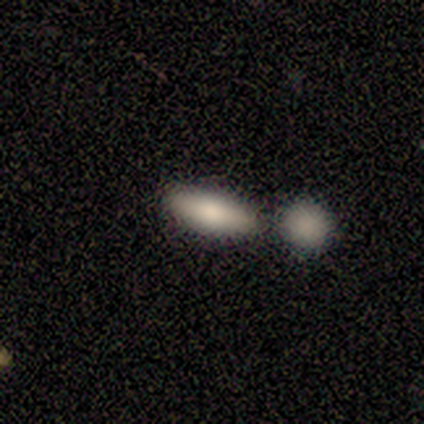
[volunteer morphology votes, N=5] type=smooth (40%, tied with featured or disk); roundness=in between (50%, tied with cigar-shaped); merging=none (50%, tied with merger).